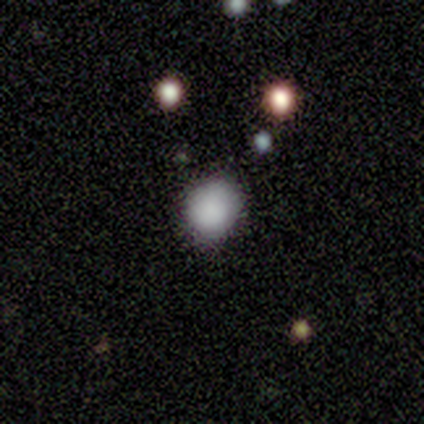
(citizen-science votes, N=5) This is clearly a smooth galaxy (80%). How rounded: clearly round (100%). Merging: clearly none (100%).